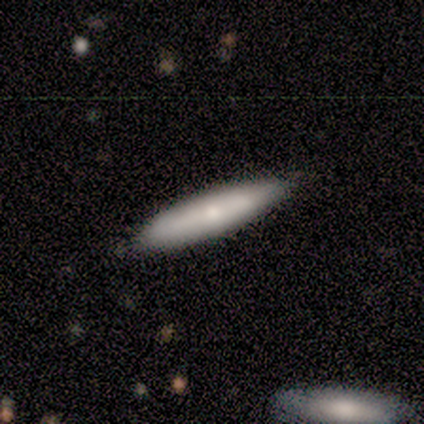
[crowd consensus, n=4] Morphology: type=smooth (100%); roundness=cigar-shaped (100%); merging=none (100%).